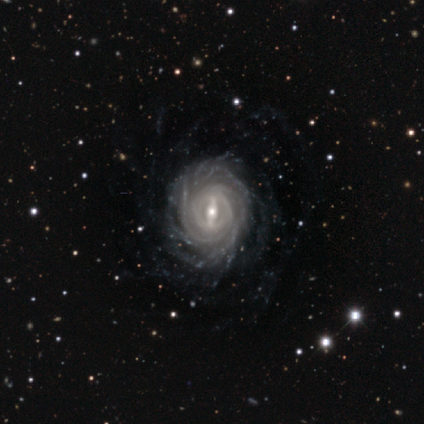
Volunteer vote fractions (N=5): Morphology: type=featured or disk (100%); edge-on=no (100%); bar=strong (80%); spiral arms=yes (100%); winding=tight (100%); arm count=more than 4 (40%); bulge=small (60%); merging=none (80%).